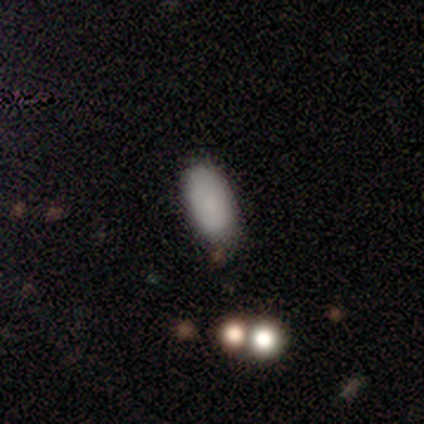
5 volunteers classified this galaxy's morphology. Smooth or featured: smooth — 60% (featured or disk — 40%)
How rounded: in between — 100%
Merging: none — 80% (minor disturbance — 20%)